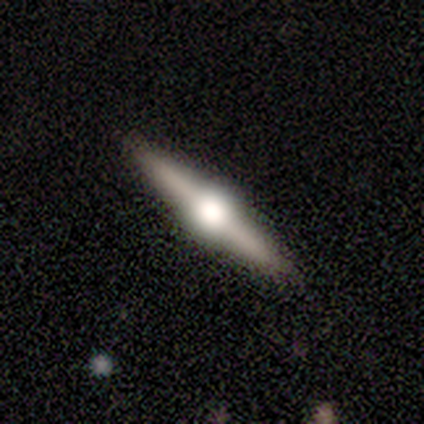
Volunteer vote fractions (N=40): Smooth or featured? 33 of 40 (82%) said featured or disk. Edge-on disk? 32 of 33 (97%) said yes. Edge-on bulge? 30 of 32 (94%) said rounded. Merging? 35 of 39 (90%) said none.